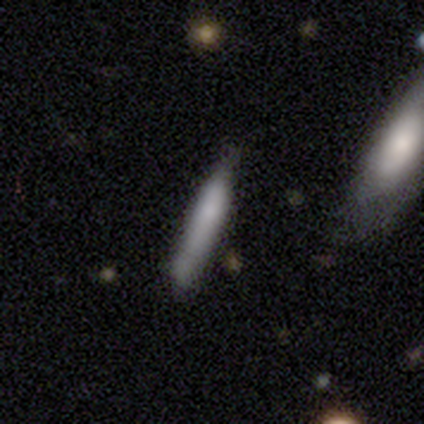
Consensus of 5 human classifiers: Q: Smooth or featured?
A: smooth (80%); runner-up: featured or disk (20%)
Q: How rounded?
A: cigar-shaped (75%); runner-up: in between (25%)
Q: Merging?
A: minor disturbance (60%); runner-up: none (40%)